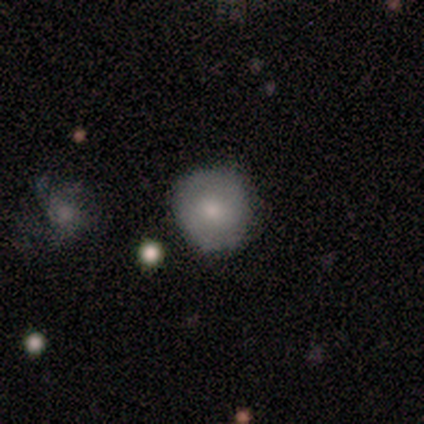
Smooth or featured? smooth (71%)
How rounded? round (100%)
Merging? none (100%)